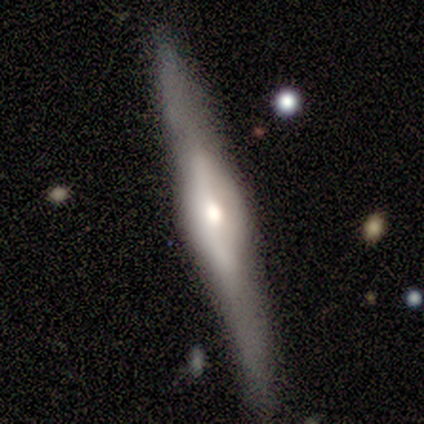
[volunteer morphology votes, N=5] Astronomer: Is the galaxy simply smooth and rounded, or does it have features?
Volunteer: featured or disk — 80%.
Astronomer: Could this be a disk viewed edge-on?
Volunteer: yes — 100%.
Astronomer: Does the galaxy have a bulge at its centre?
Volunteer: boxy — 50%, tied with rounded at 50%.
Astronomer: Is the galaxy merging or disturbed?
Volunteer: none — 60%.